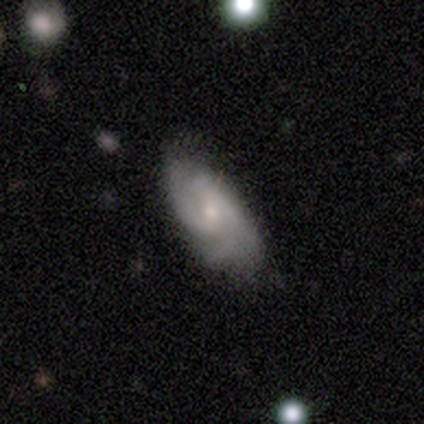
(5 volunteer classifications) Smooth or featured?
  - featured or disk: 80% *
  - star or artifact: 20%
  - smooth: 0%
Edge-on disk?
  - no: 100% *
  - yes: 0%
Bar?
  - no: 75% *
  - weak: 25%
  - strong: 0%
Spiral arms?
  - yes: 75% *
  - no: 25%
Spiral winding?
  - medium: 100% *
  - tight: 0%
  - loose: 0%
Spiral arm count?
  - can't tell: 67% *
  - 2: 33%
  - 1: 0%
  - 3: 0%
  - 4: 0%
  - more than 4: 0%
Bulge size?
  - moderate: 50% * (tied)
  - small: 50% * (tied)
  - dominant: 0%
  - large: 0%
  - none: 0%
Merging?
  - none: 75% *
  - minor disturbance: 25%
  - major disturbance: 0%
  - merger: 0%